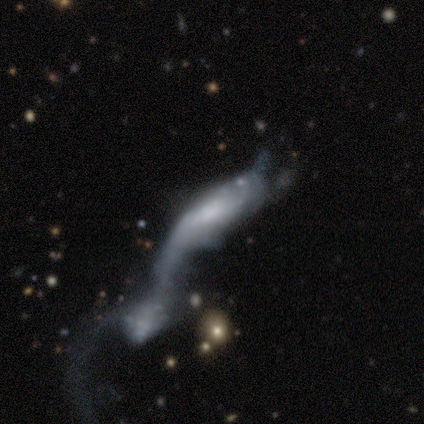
smooth_or_featured: smooth (p=0.50) [tied with: featured or disk p=0.50]
how_rounded: in between (p=0.50) [tied with: cigar-shaped p=0.50]
merging: merger (p=1.00)